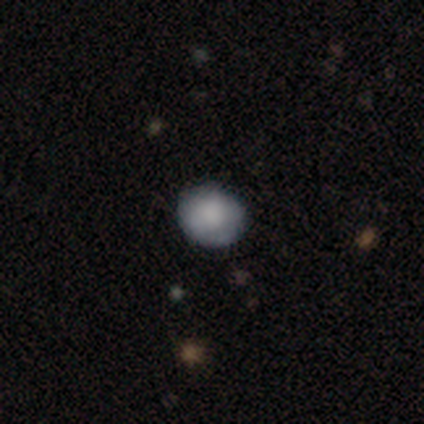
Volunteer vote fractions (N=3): Smooth or featured? 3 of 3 (100%) said smooth. How rounded? 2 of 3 (67%) said in between. Merging? 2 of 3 (67%) said none.